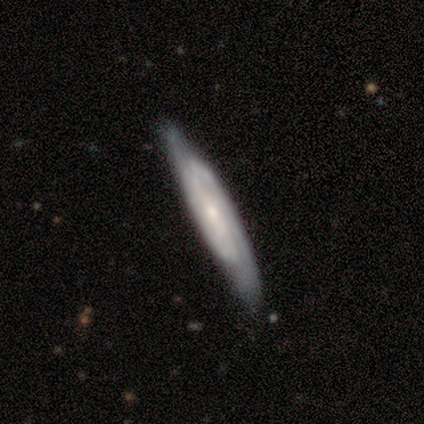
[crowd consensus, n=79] Smooth or featured? 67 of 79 (85%) said featured or disk. Edge-on disk? 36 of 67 (54%) said no. Bar? 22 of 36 (61%) said no. Spiral arms? 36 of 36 (100%) said yes. Spiral winding? 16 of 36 (44%, tied with medium) said tight. Spiral arm count? 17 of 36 (47%) said 2. Bulge size? 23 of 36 (64%) said small. Merging? 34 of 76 (45%) said none.